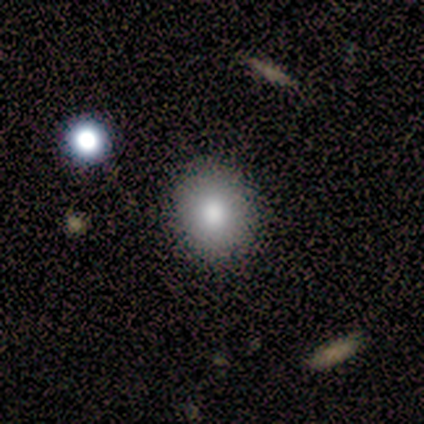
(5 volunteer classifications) smooth 40% (tied), star or artifact 40% (tied), featured or disk 20%. Down the decision tree: how rounded — round (50%, tied with in between); merging — none (67%).